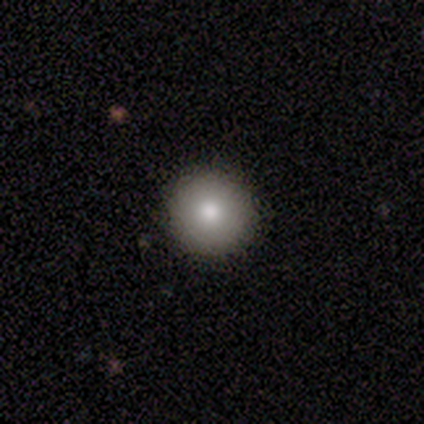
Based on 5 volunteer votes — smooth-or-featured: smooth: 80% | star or artifact: 20% | featured or disk: 0%
  how-rounded: round: 100% | in between: 0% | cigar-shaped: 0%
  merging: none: 75% | minor disturbance: 25% | major disturbance: 0% | merger: 0%